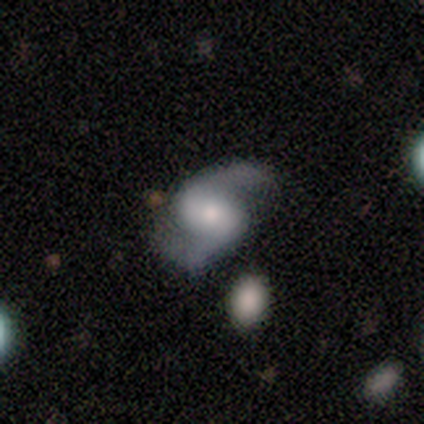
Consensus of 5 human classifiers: Volunteers were most divided on "bar": weak: 50%, strong: 25%, no: 25%. More confident: edge-on disk — no (100%); spiral arms — yes (100%); spiral arm count — 2 (100%); smooth or featured — featured or disk (80%); spiral winding — loose (75%); merging — none (75%); bulge size — moderate (50%).